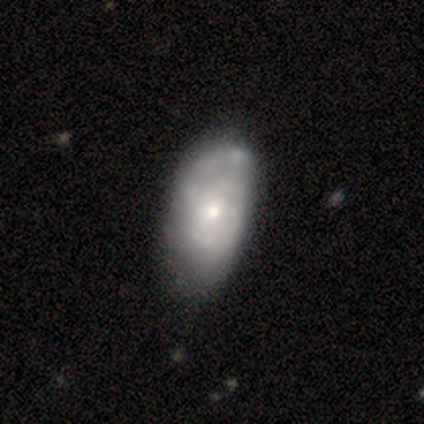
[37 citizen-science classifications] Overall: featured or disk (81%). Edge-on disk: no (97%). Bar: no (83%). Spiral arms: yes (79%). Spiral arm count: 2 (30%, tied with can't tell). Spiral winding: medium (48%; tight 35%). Bulge size: moderate (62%; small 38%). Merging: none (38%; minor disturbance 32%).